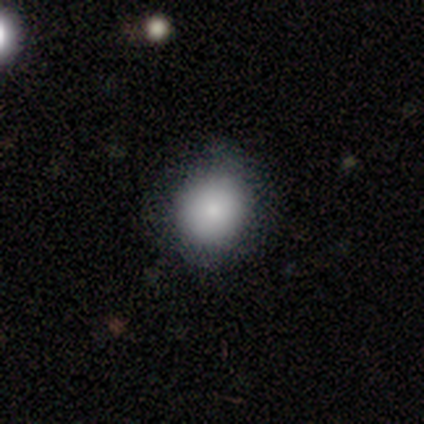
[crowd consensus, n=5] Morphology: type=smooth (80%); roundness=round (100%); merging=none (50%, tied with minor disturbance).